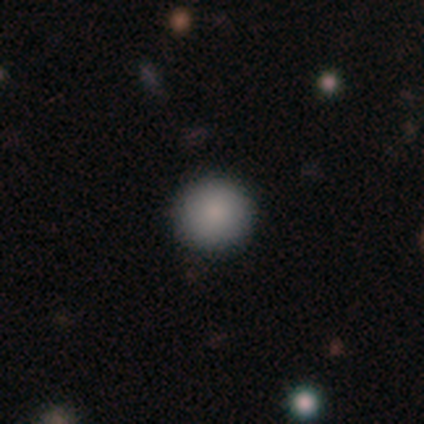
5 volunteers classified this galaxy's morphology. Smooth or featured? 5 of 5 (100%) said smooth. How rounded? 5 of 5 (100%) said round. Merging? 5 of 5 (100%) said none.